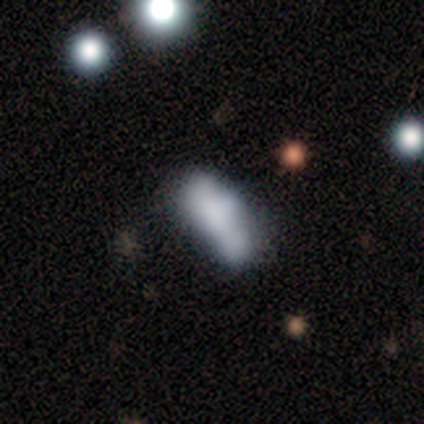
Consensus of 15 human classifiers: This appears to be a smooth galaxy with no disk features (67%) that is in between round and cigar-shaped (50%, tied with cigar-shaped). Merging: none (36%).